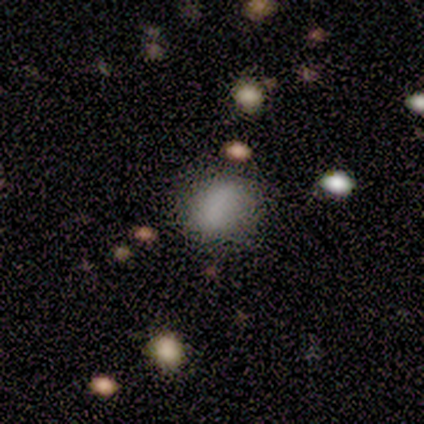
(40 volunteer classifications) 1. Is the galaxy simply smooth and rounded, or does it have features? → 80% smooth, 10% featured or disk, 10% star or artifact.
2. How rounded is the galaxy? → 56% round, 44% in between, 0% cigar-shaped.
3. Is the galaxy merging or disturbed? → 72% none, 25% minor disturbance, 3% major disturbance, 0% merger.